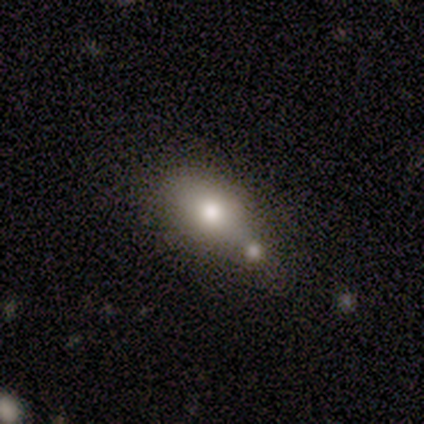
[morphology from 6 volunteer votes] smooth_or_featured: smooth (p=0.83) [alt: featured or disk p=0.17]
how_rounded: in between (p=1.00)
merging: none (p=0.33) [tied with: merger p=0.33]